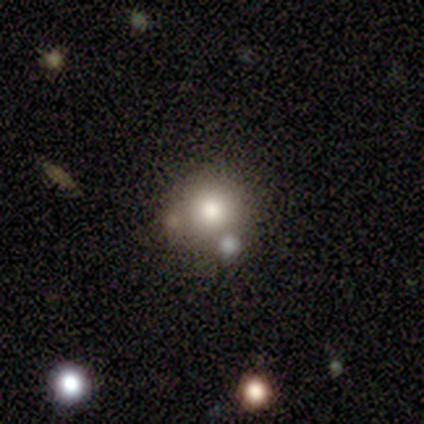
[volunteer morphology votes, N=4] Smooth or featured? 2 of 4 (50%) said smooth. How rounded? 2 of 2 (100%) said round. Merging? 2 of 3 (67%) said none.